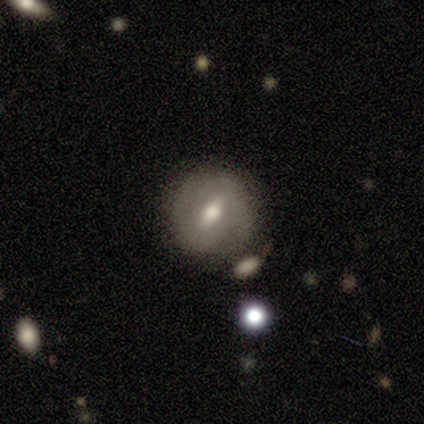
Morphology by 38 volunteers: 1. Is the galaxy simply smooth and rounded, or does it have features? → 68% featured or disk, 32% smooth, 0% star or artifact.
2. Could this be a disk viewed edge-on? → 81% no, 19% yes.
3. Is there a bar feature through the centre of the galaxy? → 52% weak, 38% strong, 10% no.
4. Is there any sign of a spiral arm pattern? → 52% yes, 48% no.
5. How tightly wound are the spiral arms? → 82% tight, 18% medium, 0% loose.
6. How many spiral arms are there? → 64% 2, 18% can't tell, 9% 1, 9% 4, 0% 3, 0% more than 4.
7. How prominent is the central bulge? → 67% moderate, 24% small, 10% large, 0% dominant, 0% none.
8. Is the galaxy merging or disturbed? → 82% none, 8% minor disturbance, 8% merger, 3% major disturbance.